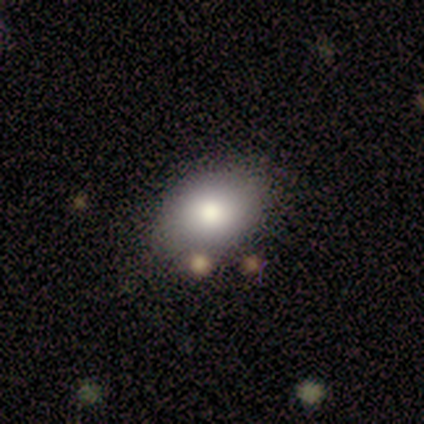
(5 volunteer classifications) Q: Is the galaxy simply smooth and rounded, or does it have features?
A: smooth — 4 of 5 (80%).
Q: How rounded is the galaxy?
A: in between — 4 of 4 (100%).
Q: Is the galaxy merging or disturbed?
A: none — 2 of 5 (40%, tied with minor disturbance).